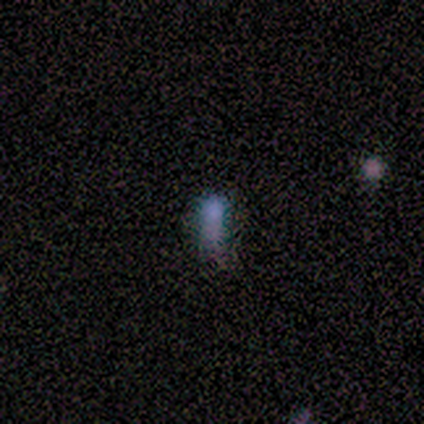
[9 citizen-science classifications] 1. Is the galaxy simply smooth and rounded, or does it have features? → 67% smooth, 22% featured or disk, 11% star or artifact.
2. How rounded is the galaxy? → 83% in between, 17% cigar-shaped, 0% round.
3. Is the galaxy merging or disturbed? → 75% minor disturbance, 25% none, 0% major disturbance, 0% merger.